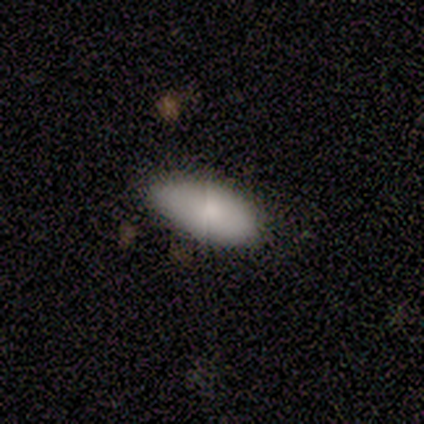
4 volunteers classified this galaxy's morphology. This appears to be a smooth galaxy with no disk features (100%) that is in between round and cigar-shaped (100%). Merging: none (75%).